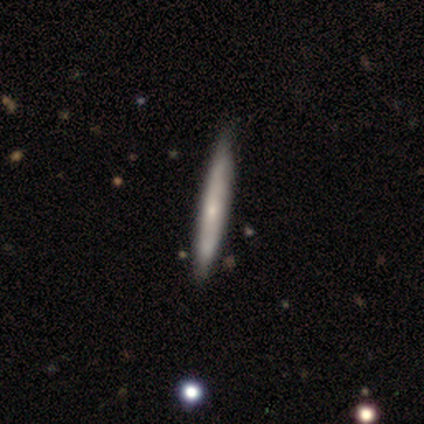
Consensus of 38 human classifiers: smooth_or_featured: smooth (p=0.55) [alt: featured or disk p=0.39]
how_rounded: cigar-shaped (p=0.95) [alt: in between p=0.05]
merging: none (p=0.81) [alt: minor disturbance p=0.11]